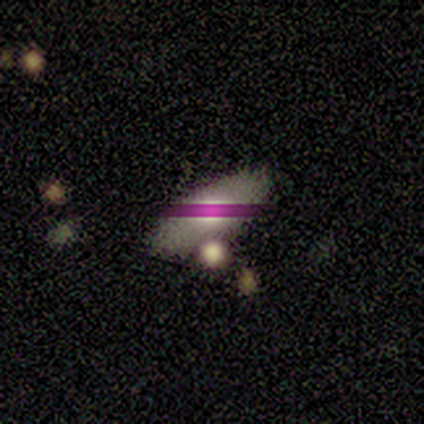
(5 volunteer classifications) Morphology: type=smooth (80%); roundness=in between (100%); merging=none (50%).